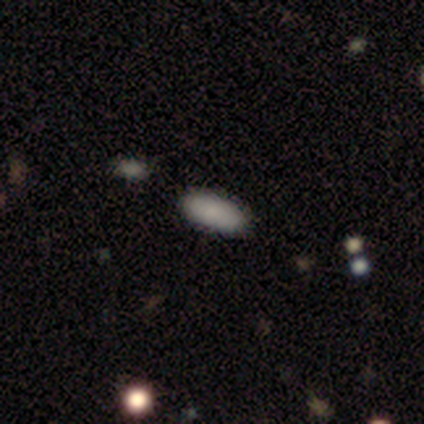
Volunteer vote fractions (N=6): Smooth or featured? 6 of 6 (100%) said smooth. How rounded? 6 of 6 (100%) said in between. Merging? 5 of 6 (83%) said none.